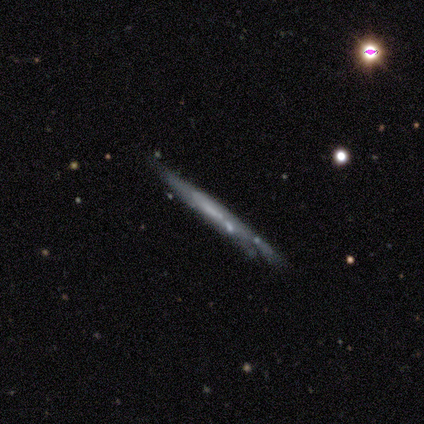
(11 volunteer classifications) This appears to be a featured or disk galaxy (55%) viewed edge-on (83%) with no central bulge (100%). Merging: none (70%).